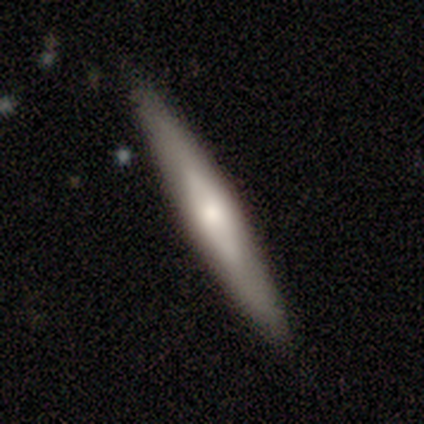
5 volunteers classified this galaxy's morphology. smooth-or-featured: smooth: 60% | featured or disk: 40% | star or artifact: 0%
  how-rounded: cigar-shaped: 100% | round: 0% | in between: 0%
  merging: none: 100% | minor disturbance: 0% | major disturbance: 0% | merger: 0%